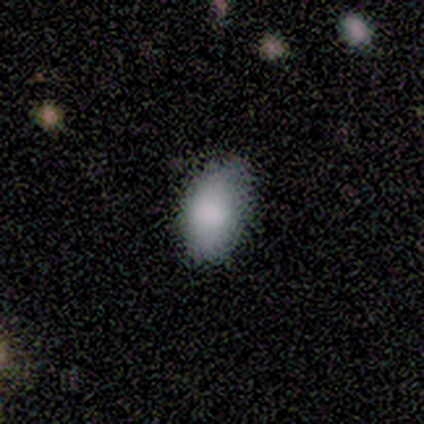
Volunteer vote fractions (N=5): Overall: smooth (80%). How rounded: in between (100%). Merging: none (60%; minor disturbance 20%).